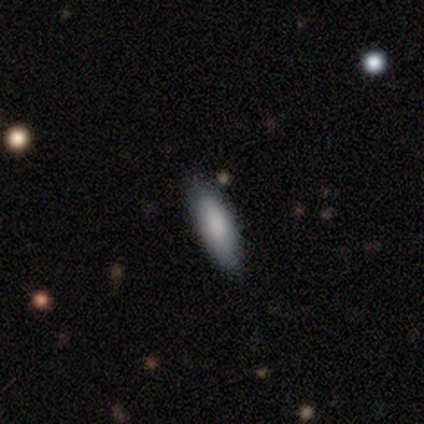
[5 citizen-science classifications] A smooth galaxy with no disk features (100%) that is cigar-shaped (80%).

Vote fractions:
- Smooth or featured? smooth: 100% / featured or disk: 0% / star or artifact: 0%
- How rounded? cigar-shaped: 80% / in between: 20% / round: 0%
- Merging? none: 100% / minor disturbance: 0% / major disturbance: 0% / merger: 0%